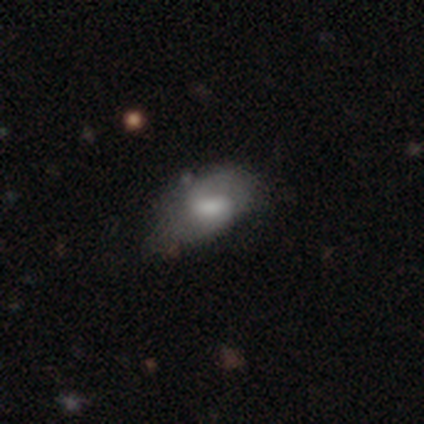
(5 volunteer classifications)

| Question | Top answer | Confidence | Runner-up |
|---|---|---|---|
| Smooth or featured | smooth | 60% | featured or disk (40%) |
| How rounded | in between | 67% | cigar-shaped (33%) |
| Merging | none | 40% | tied: major disturbance (40%) |